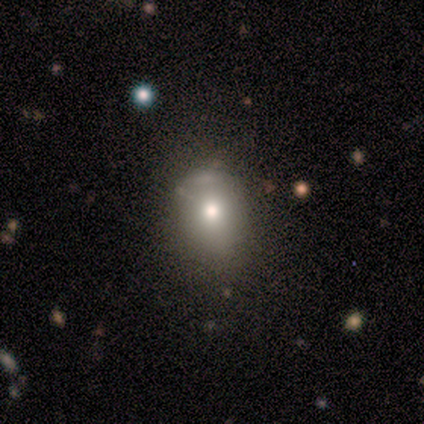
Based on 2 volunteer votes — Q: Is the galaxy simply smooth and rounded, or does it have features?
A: smooth — 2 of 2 (100%).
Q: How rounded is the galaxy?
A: in between — 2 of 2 (100%).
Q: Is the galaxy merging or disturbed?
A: none — 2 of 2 (100%).